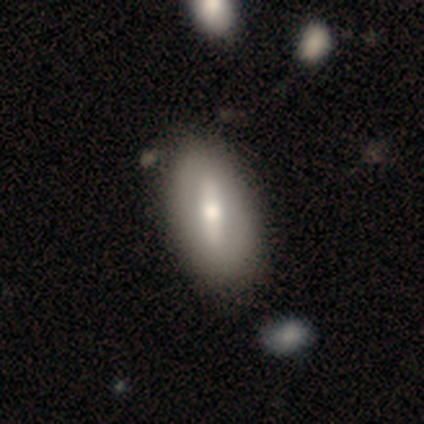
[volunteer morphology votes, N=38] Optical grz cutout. It shows a featured or disk galaxy (61%) with a strong bar (58%), no spiral arms (84%) and a moderate central bulge (84%). Merging: none (64%).